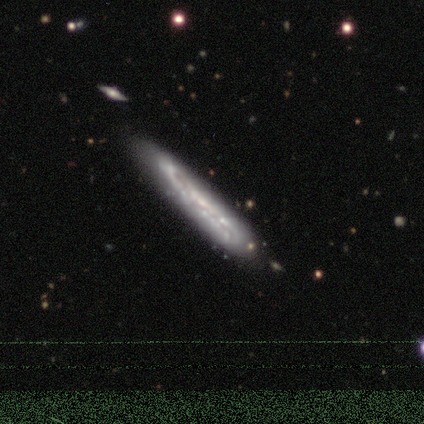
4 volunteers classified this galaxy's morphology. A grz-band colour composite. It shows a featured or disk galaxy (50%) viewed edge-on (100%) with no central bulge (50%, tied with rounded). Merging: minor disturbance (67%).